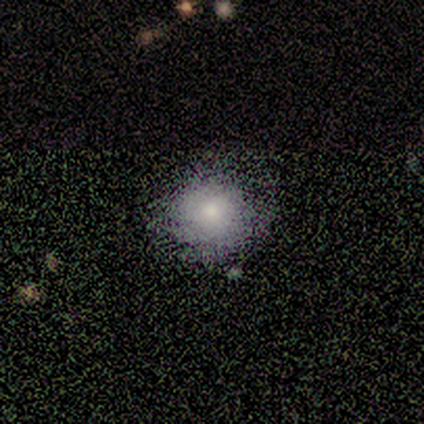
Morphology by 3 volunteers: Overall: smooth (67%; star or artifact 33%). How rounded: round (100%). Merging: none (100%).